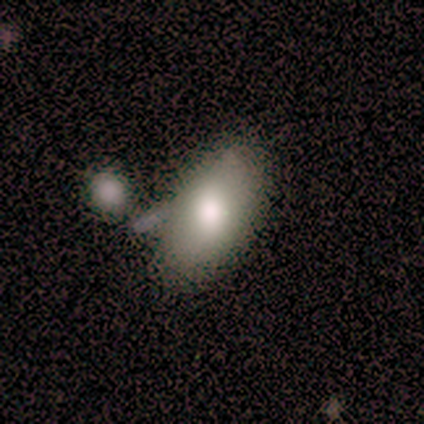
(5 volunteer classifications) Q: Smooth or featured?
A: smooth (80%); runner-up: featured or disk (20%)
Q: How rounded?
A: in between (75%); runner-up: round (25%)
Q: Merging?
A: none (40%); tied with: major disturbance (40%)